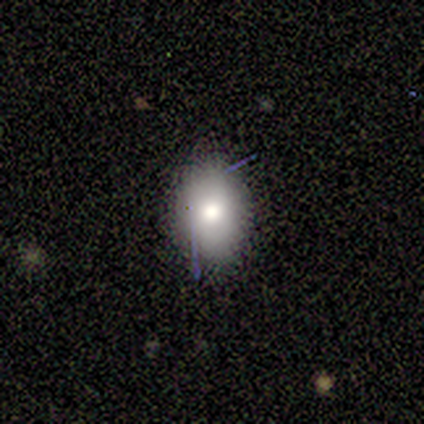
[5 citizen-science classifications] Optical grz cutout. It shows a smooth galaxy with no disk features (100%) that is in between round and cigar-shaped (100%). Merging: none (80%).